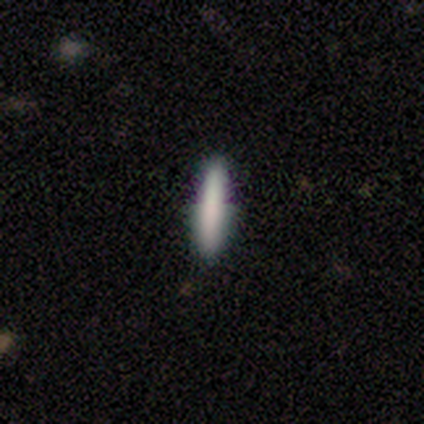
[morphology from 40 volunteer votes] Q: Smooth or featured?
A: smooth (82%); runner-up: featured or disk (10%)
Q: How rounded?
A: cigar-shaped (97%); runner-up: in between (3%)
Q: Merging?
A: none (86%); runner-up: minor disturbance (11%)